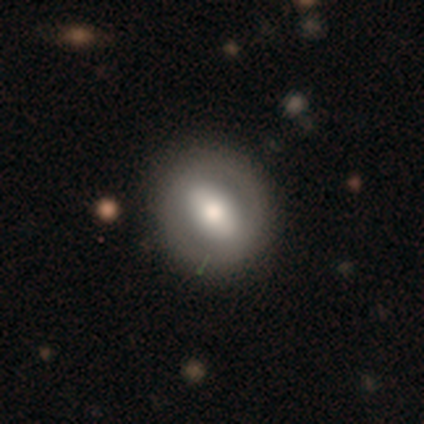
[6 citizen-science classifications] Volunteers were most divided on "smooth or featured": smooth: 67%, featured or disk: 33%, star or artifact: 0%. More confident: merging — none (100%); how rounded — round (75%).